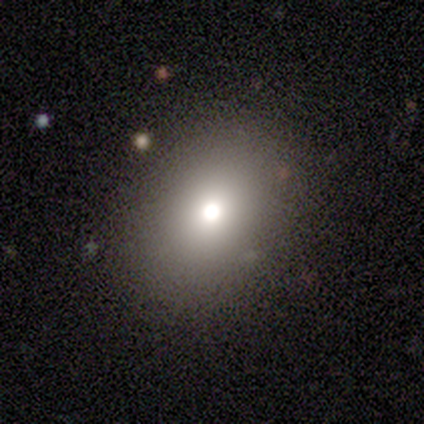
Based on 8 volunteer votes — This is likely a smooth galaxy (75%). How rounded: likely round (67%). Merging: clearly none (100%).